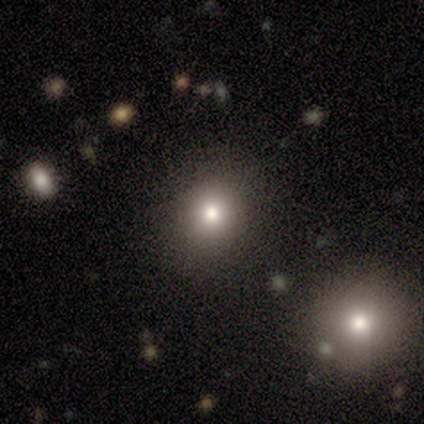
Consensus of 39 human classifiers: Morphology: type=smooth (69%); roundness=round (85%); merging=none (77%).